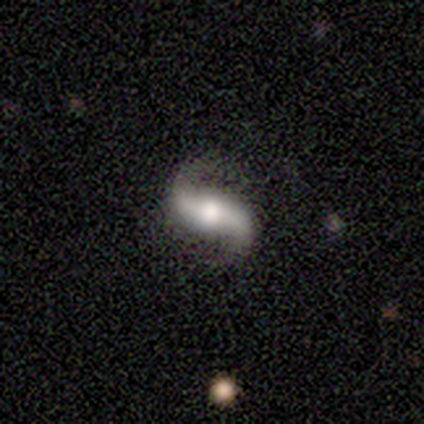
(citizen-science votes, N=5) smooth_or_featured: featured or disk (p=1.00)
disk_edge_on: no (p=1.00)
bar: strong (p=0.60) [alt: weak p=0.20]
has_spiral_arms: yes (p=1.00)
spiral_winding: medium (p=0.40) [tied with: loose p=0.40]
spiral_arm_count: 2 (p=1.00)
bulge_size: large (p=0.60) [alt: moderate p=0.40]
merging: none (p=1.00)